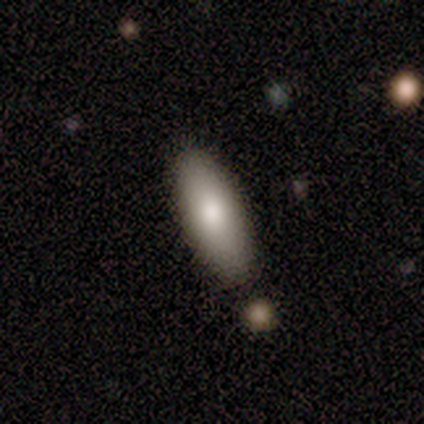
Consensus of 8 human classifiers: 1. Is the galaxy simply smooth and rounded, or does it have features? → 88% smooth, 12% featured or disk, 0% star or artifact.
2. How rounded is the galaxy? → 86% in between, 14% cigar-shaped, 0% round.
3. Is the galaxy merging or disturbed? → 62% none, 38% minor disturbance, 0% major disturbance, 0% merger.